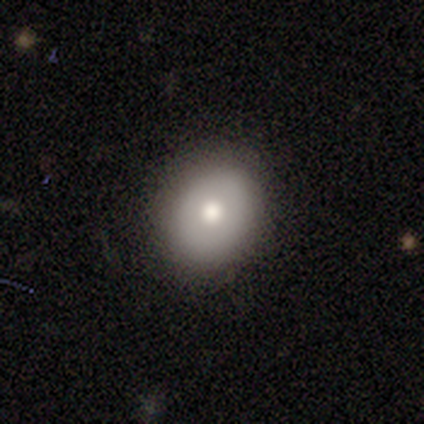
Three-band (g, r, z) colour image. It shows a smooth galaxy with no disk features (90%) that is round (78%). Merging: none (90%).